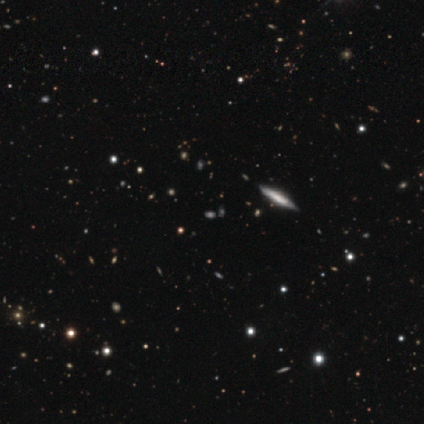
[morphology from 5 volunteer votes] Volunteers were most divided on "how rounded" (3-way tie): round: 33%, in between: 33%, cigar-shaped: 33%. More confident: merging — none (100%); smooth or featured — smooth (60%).